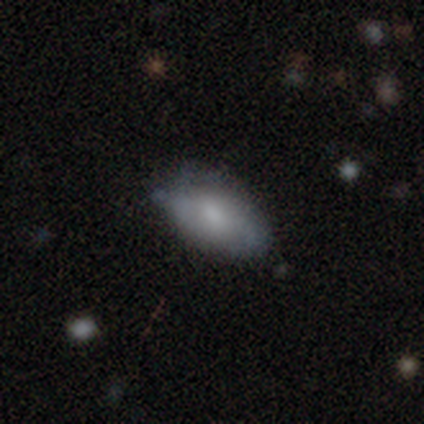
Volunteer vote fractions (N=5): featured or disk 60%, smooth 40%, star or artifact 0%. Down the decision tree: edge-on disk — no (100%); bar — no (67%); spiral arms — yes (67%); spiral arm count — 2 (50%, tied with can't tell); spiral winding — tight (50%, tied with loose); bulge size — moderate (67%); merging — none (100%).